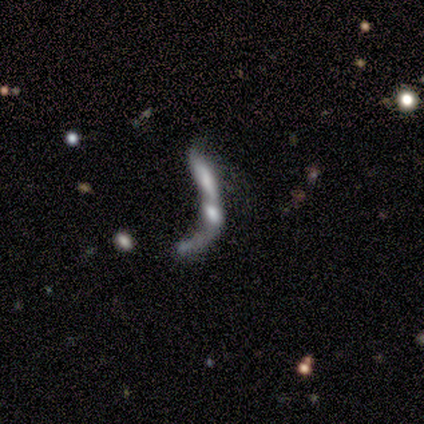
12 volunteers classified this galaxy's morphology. Q: Smooth or featured?
A: smooth (42%); runner-up: featured or disk (33%)
Q: How rounded?
A: cigar-shaped (60%); runner-up: in between (40%)
Q: Merging?
A: merger (78%); runner-up: none (11%)